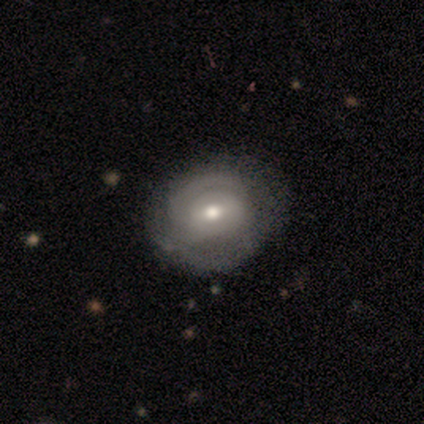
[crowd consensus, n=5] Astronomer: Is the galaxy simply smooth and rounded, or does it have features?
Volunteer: featured or disk — 80%.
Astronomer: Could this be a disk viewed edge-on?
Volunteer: no — 75%.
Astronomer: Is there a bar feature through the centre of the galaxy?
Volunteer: weak — 100%.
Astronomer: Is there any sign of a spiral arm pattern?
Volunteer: yes — 67%.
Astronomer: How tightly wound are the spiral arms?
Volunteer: medium — 50%, tied with loose at 50%.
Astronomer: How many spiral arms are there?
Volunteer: can't tell — 100%.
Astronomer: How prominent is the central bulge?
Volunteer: moderate — 67%.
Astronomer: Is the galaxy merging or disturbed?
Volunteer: none — 80%.